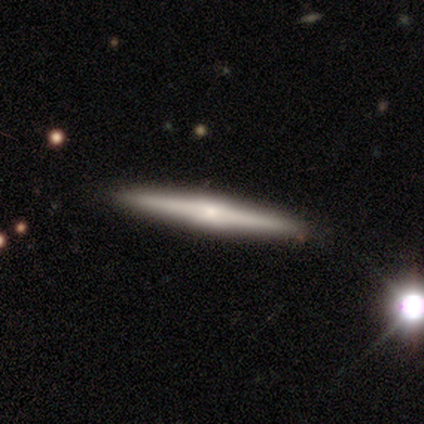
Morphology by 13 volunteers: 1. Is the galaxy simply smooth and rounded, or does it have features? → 69% featured or disk, 31% smooth, 0% star or artifact.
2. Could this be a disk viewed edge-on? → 100% yes, 0% no.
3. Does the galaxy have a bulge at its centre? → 56% boxy, 33% rounded, 11% none.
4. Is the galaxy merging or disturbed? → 100% none, 0% minor disturbance, 0% major disturbance, 0% merger.